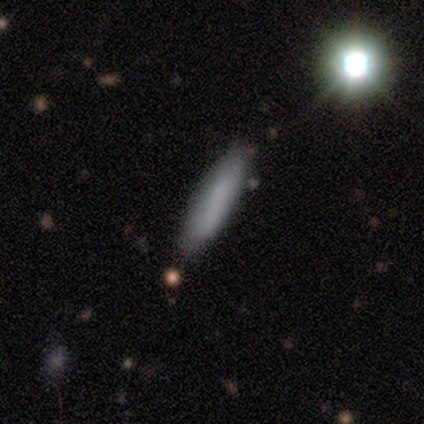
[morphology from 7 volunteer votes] A smooth galaxy with no disk features (57%) that is cigar-shaped (100%).

Vote fractions:
- Smooth or featured? smooth: 57% / featured or disk: 43% / star or artifact: 0%
- How rounded? cigar-shaped: 100% / round: 0% / in between: 0%
- Merging? none: 57% / minor disturbance: 29% / merger: 14% / major disturbance: 0%